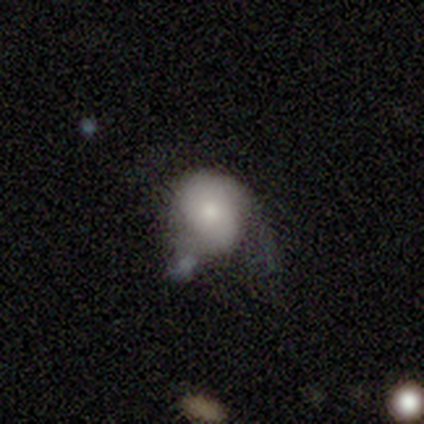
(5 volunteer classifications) A smooth galaxy with no disk features (80%) that is round (75%). Merging: minor disturbance (100%).